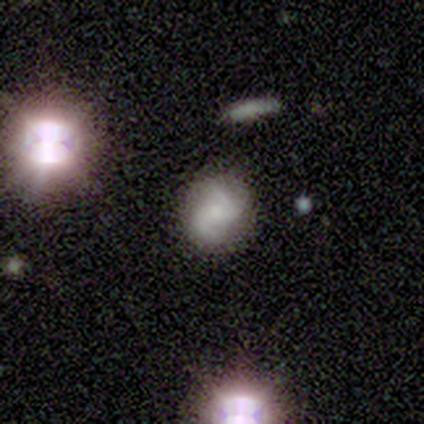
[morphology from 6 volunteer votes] Smooth or featured? featured or disk (100%)
Edge-on disk? no (100%)
Bar? weak (50%, tied with no)
Spiral arms? yes (83%)
Spiral winding? loose (60%)
Spiral arm count? 2 (80%)
Bulge size? small (67%)
Merging? none (83%)